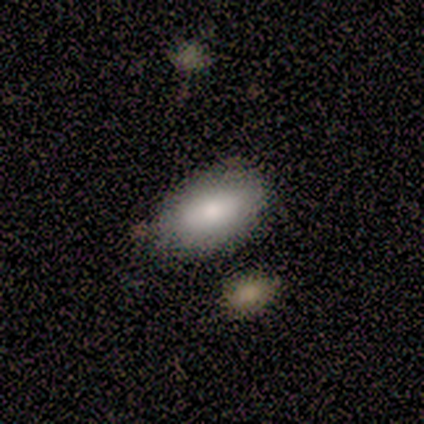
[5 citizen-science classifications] Smooth or featured? smooth (40%, tied with featured or disk)
How rounded? in between (100%)
Merging? none (75%)